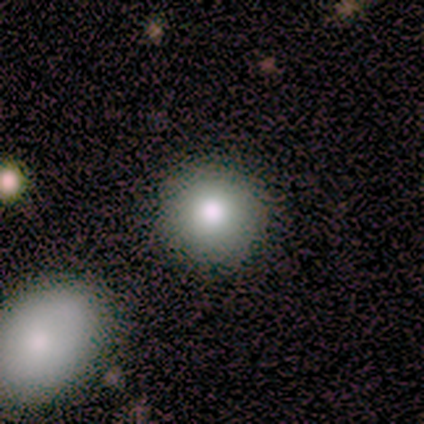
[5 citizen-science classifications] Smooth or featured: smooth — 80% (featured or disk — 20%)
How rounded: round — 100%
Merging: none — 80% (minor disturbance — 20%)